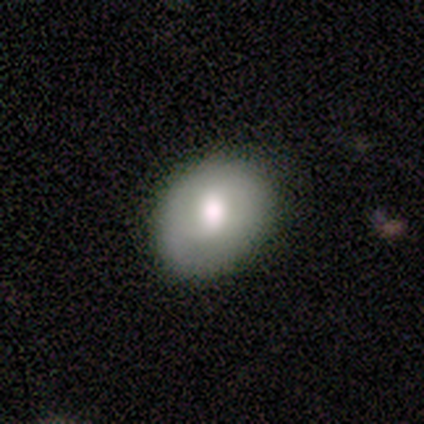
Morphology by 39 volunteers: Smooth or featured? smooth (56%)
How rounded? in between (68%)
Merging? none (77%)